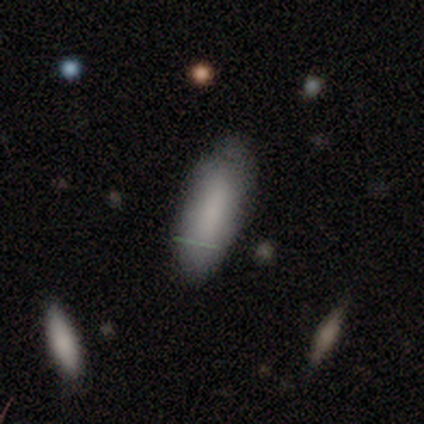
A smooth galaxy with no disk features (67%) that is in between round and cigar-shaped (50%, tied with cigar-shaped).

Vote fractions:
- Smooth or featured? smooth: 67% / featured or disk: 33% / star or artifact: 0%
- How rounded? in between: 50% (tied) / cigar-shaped: 50% (tied) / round: 0%
- Merging? none: 67% / minor disturbance: 33% / major disturbance: 0% / merger: 0%